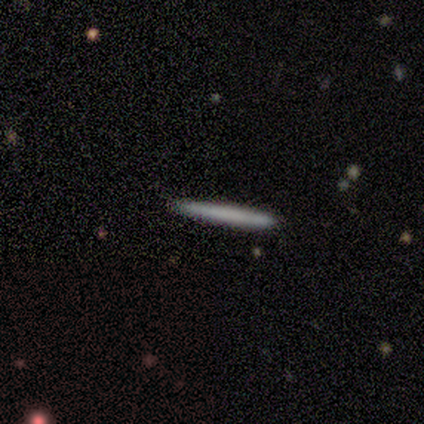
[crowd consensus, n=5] Smooth or featured: smooth — 80% (featured or disk — 20%)
How rounded: cigar-shaped — 100%
Merging: none — 80% (minor disturbance — 20%)